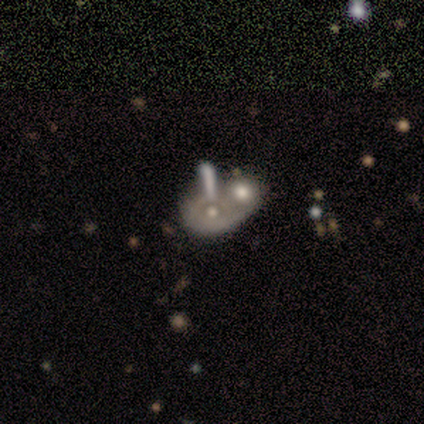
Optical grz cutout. It shows a featured or disk galaxy (62%) with no bar (95%), no spiral arms (95%) and a moderate central bulge (55%). Merging: merger (62%).